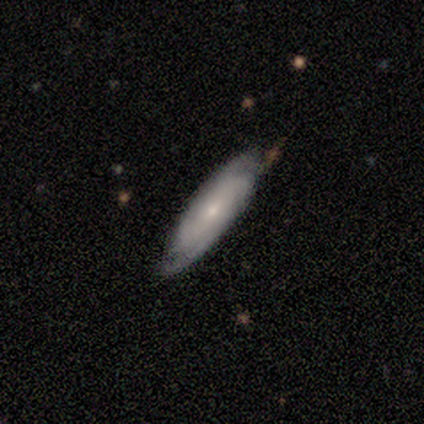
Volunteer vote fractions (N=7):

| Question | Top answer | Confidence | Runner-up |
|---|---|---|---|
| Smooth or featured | smooth | 57% | featured or disk (43%) |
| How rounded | cigar-shaped | 75% | in between (25%) |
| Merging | none | 71% | minor disturbance (29%) |